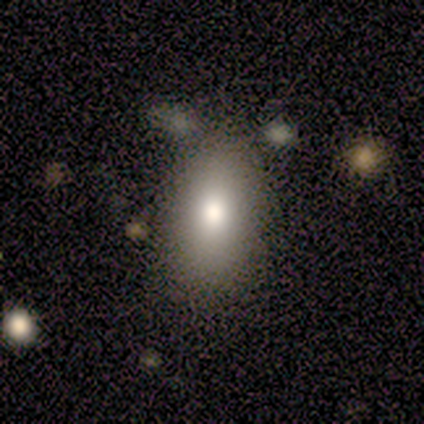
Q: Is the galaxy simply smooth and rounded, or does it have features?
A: smooth — 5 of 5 (100%).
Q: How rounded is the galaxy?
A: in between — 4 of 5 (80%).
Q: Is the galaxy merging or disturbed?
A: none — 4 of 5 (80%).